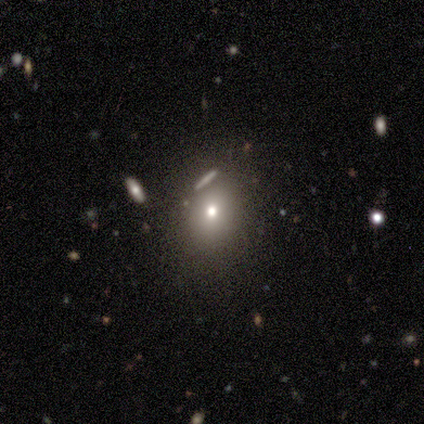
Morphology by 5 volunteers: Smooth or featured?
  - smooth: 80% *
  - featured or disk: 20%
  - star or artifact: 0%
How rounded?
  - in between: 100% *
  - round: 0%
  - cigar-shaped: 0%
Merging?
  - none: 80% *
  - minor disturbance: 20%
  - major disturbance: 0%
  - merger: 0%